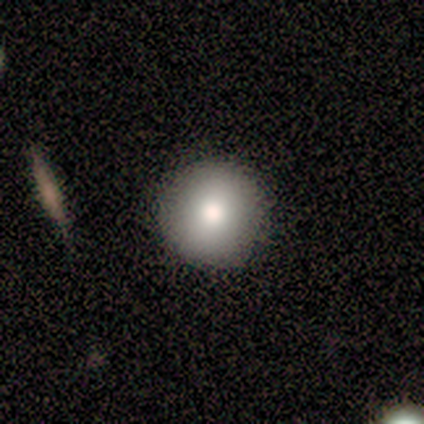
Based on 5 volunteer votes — A smooth galaxy with no disk features (100%) that is round (80%). Merging: none (80%).